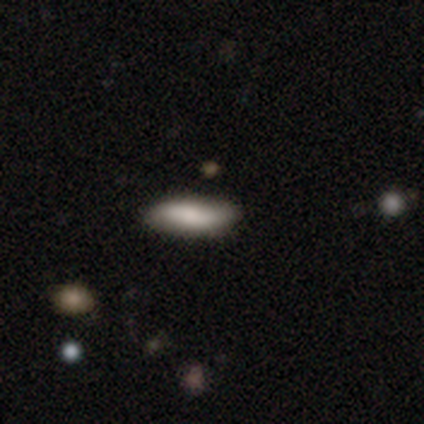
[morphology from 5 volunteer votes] Smooth or featured?
  - smooth: 80% *
  - star or artifact: 20%
  - featured or disk: 0%
How rounded?
  - in between: 50% * (tied)
  - cigar-shaped: 50% * (tied)
  - round: 0%
Merging?
  - none: 75% *
  - merger: 25%
  - minor disturbance: 0%
  - major disturbance: 0%